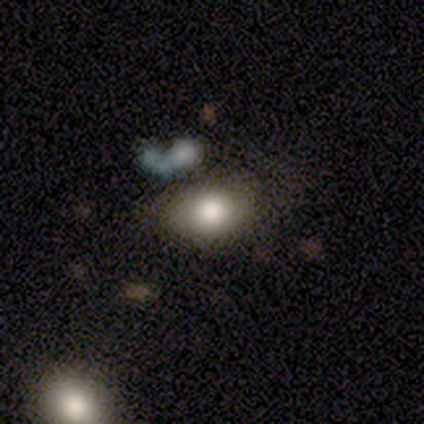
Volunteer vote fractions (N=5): A smooth galaxy with no disk features (80%) that is in between round and cigar-shaped (75%).

Vote fractions:
- Smooth or featured? smooth: 80% / featured or disk: 20% / star or artifact: 0%
- How rounded? in between: 75% / round: 25% / cigar-shaped: 0%
- Merging? none: 100% / minor disturbance: 0% / major disturbance: 0% / merger: 0%